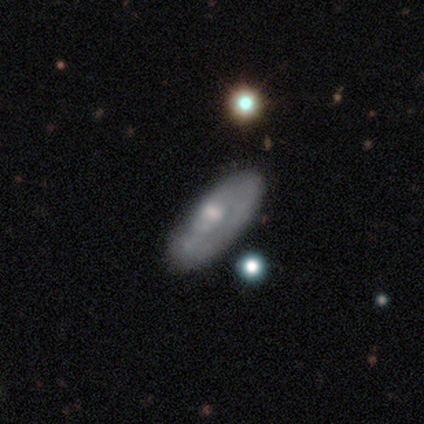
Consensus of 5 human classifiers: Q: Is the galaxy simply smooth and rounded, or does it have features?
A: smooth — 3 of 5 (60%).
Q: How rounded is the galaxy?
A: cigar-shaped — 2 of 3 (67%).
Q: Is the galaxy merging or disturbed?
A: none — 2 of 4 (50%, tied with minor disturbance).